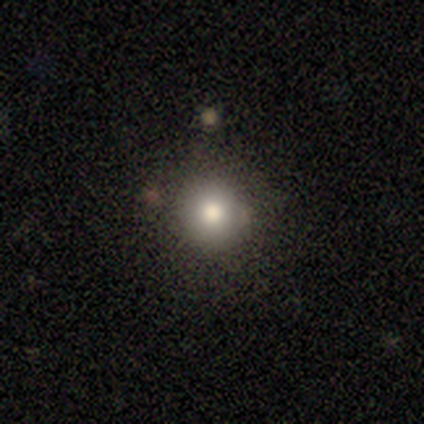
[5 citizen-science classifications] Morphology: type=smooth (80%); roundness=round (100%); merging=none (80%).